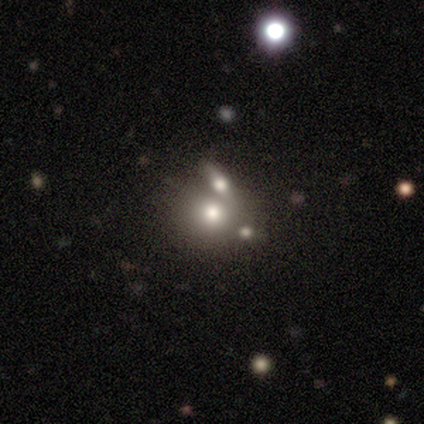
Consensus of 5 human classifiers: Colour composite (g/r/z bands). It shows a smooth galaxy with no disk features (100%) that is round (100%). Merging: none (60%).